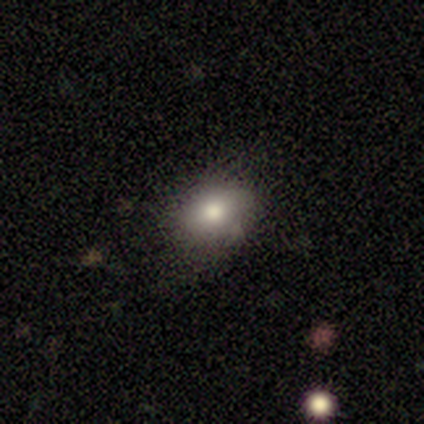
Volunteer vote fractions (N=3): Smooth or featured?
  - smooth: 67% *
  - featured or disk: 33%
  - star or artifact: 0%
How rounded?
  - in between: 100% *
  - round: 0%
  - cigar-shaped: 0%
Merging?
  - none: 100% *
  - minor disturbance: 0%
  - major disturbance: 0%
  - merger: 0%